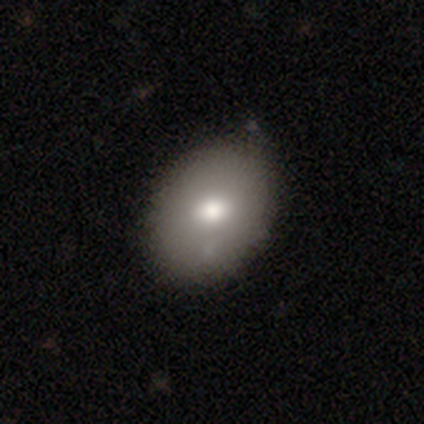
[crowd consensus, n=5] A smooth galaxy with no disk features (80%) that is in between round and cigar-shaped (100%). Merging: none (60%).